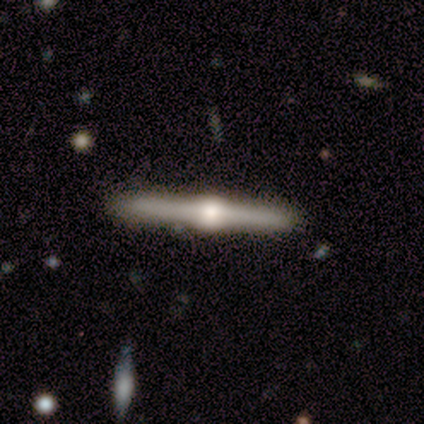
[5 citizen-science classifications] This appears to be a featured or disk galaxy (80%) viewed edge-on (100%) with a rounded central bulge (100%). Merging: none (100%).